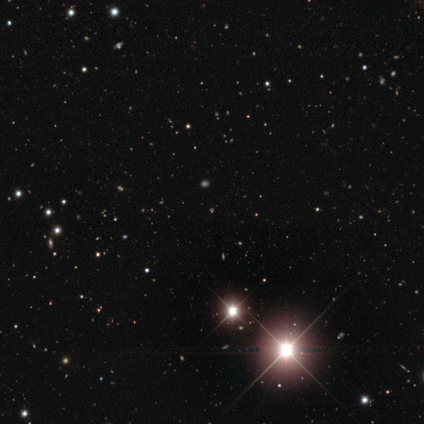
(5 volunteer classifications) star or artifact 80%, smooth 20%, featured or disk 0%.